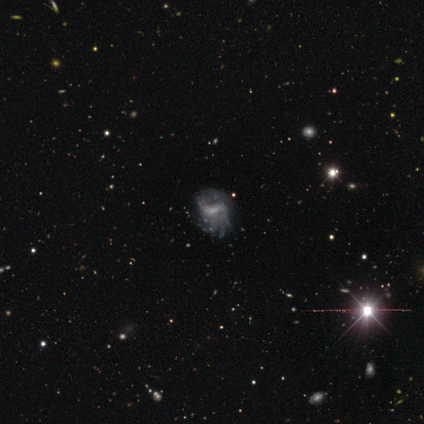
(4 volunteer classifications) Smooth or featured: featured or disk — 75% (star or artifact — 25%)
Edge-on disk: no — 100%
Bar: weak — 67% (no — 33%)
Spiral arms: yes — 100%
Spiral winding: tight — 67% (loose — 33%)
Spiral arm count: can't tell — 67% (2 — 33%)
Bulge size: moderate — 33% (tied with small — 33%; none — 33%)
Merging: none — 67% (minor disturbance — 33%)